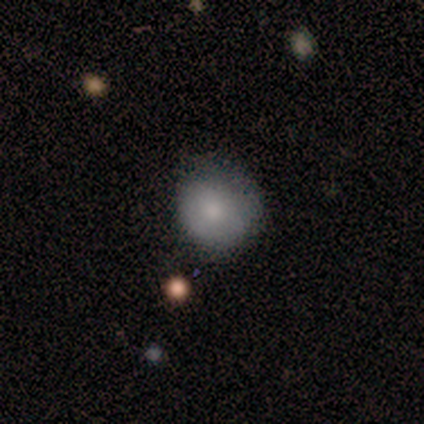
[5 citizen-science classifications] Overall: smooth (60%; featured or disk 40%). How rounded: round (100%). Merging: none (80%).